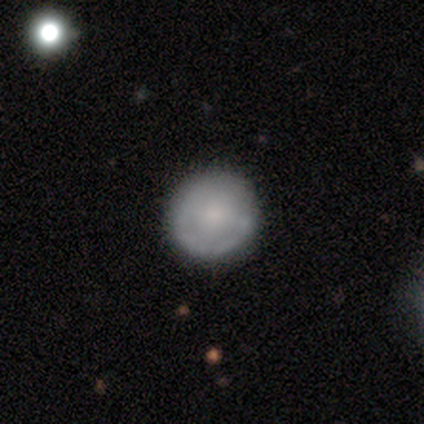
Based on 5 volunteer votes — A featured or disk galaxy (60%) with no bar (67%), no spiral arms (67%) and a small central bulge (100%).

Vote fractions:
- Smooth or featured? featured or disk: 60% / smooth: 40% / star or artifact: 0%
- Edge-on disk? no: 100% / yes: 0%
- Bar? no: 67% / weak: 33% / strong: 0%
- Spiral arms? no: 67% / yes: 33%
- Bulge size? small: 100% / dominant: 0% / large: 0% / moderate: 0% / none: 0%
- Merging? none: 80% / major disturbance: 20% / minor disturbance: 0% / merger: 0%